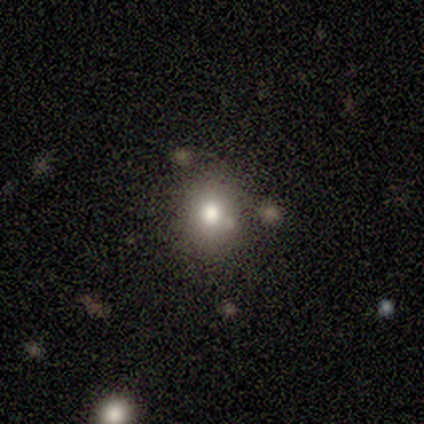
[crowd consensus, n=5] A smooth galaxy with no disk features (60%) that is in between round and cigar-shaped (100%).

Vote fractions:
- Smooth or featured? smooth: 60% / star or artifact: 40% / featured or disk: 0%
- How rounded? in between: 100% / round: 0% / cigar-shaped: 0%
- Merging? none: 100% / minor disturbance: 0% / major disturbance: 0% / merger: 0%